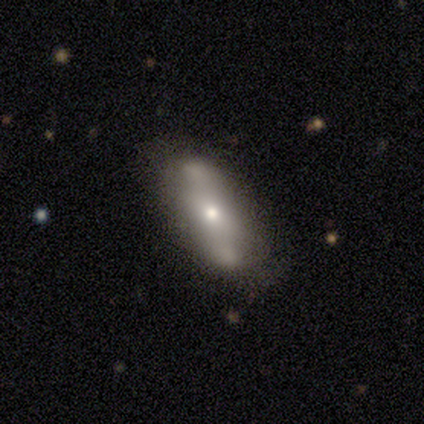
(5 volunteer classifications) smooth_or_featured: featured or disk (p=0.80) [alt: smooth p=0.20]
disk_edge_on: no (p=1.00)
bar: no (p=0.75) [alt: weak p=0.25]
has_spiral_arms: no (p=0.75) [alt: yes p=0.25]
bulge_size: small (p=1.00)
merging: none (p=0.40) [tied with: minor disturbance p=0.40]